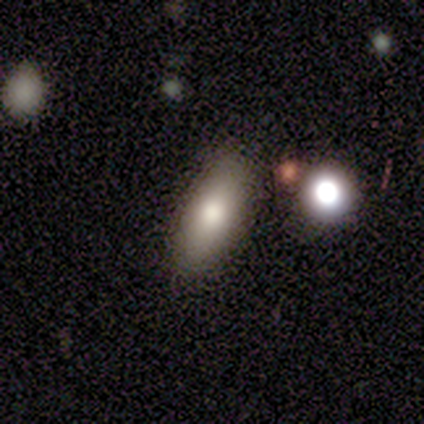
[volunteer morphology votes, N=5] Overall: smooth (60%; featured or disk 20%). How rounded: in between (67%; cigar-shaped 33%). Merging: none (75%).